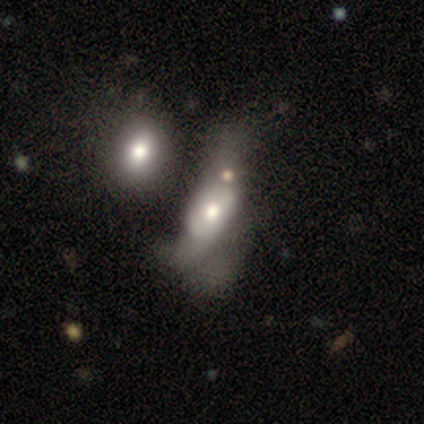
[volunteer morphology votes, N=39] type=featured or disk (56%); edge-on=no (95%); bar=no (86%); spiral arms=no (71%); bulge=moderate (71%); merging=major disturbance (50%).